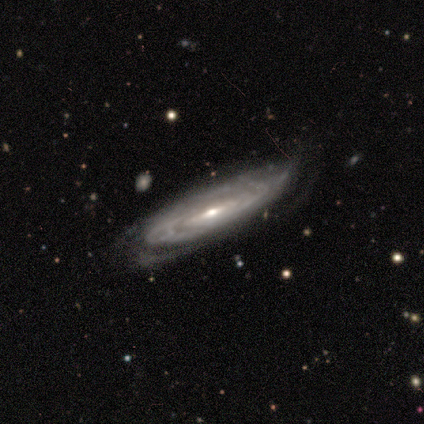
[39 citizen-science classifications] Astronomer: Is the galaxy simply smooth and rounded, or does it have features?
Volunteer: featured or disk — 87%.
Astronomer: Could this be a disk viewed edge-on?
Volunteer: no — 74%.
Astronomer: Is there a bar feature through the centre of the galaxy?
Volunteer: weak — 52% (runner-up: no, 32%).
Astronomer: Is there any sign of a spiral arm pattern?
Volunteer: yes — 92%.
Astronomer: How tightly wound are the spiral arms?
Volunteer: tight — 74%.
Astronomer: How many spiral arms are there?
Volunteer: can't tell — 57% (runner-up: 2, 35%).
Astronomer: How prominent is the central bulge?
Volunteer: small — 60%.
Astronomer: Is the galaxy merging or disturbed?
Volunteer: none — 67%.